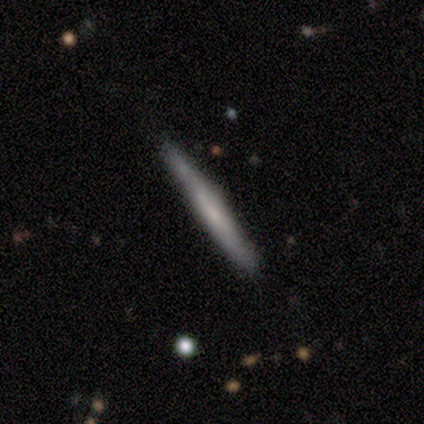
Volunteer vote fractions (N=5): Q: Smooth or featured?
A: featured or disk (60%); runner-up: smooth (40%)
Q: Edge-on disk?
A: yes (100%)
Q: Edge-on bulge?
A: none (67%); runner-up: boxy (33%)
Q: Merging?
A: none (80%); runner-up: merger (20%)